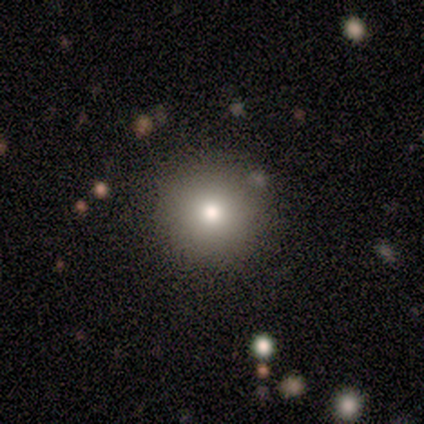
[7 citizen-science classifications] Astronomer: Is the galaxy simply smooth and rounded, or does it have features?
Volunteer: smooth — 57% (runner-up: star or artifact, 43%).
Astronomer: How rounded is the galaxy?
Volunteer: round — 100%.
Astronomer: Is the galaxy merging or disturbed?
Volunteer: none — 75%.